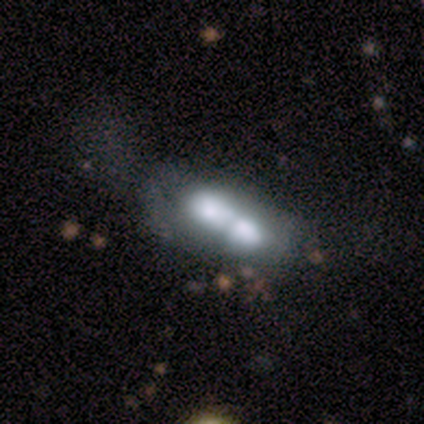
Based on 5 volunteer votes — Smooth or featured? 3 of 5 (60%) said smooth. How rounded? 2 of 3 (67%) said cigar-shaped. Merging? 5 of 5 (100%) said merger.